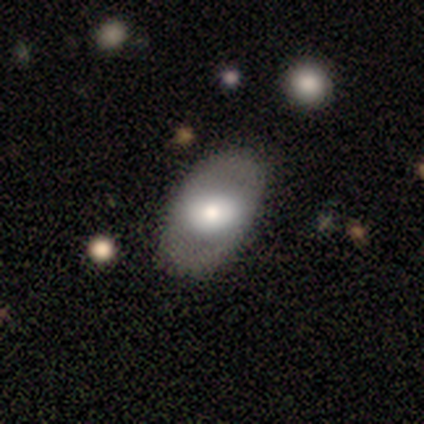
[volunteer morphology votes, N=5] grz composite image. It shows a featured or disk galaxy (60%) with no bar (100%), no spiral arms (67%) and a large central bulge (100%). Merging: none (100%).